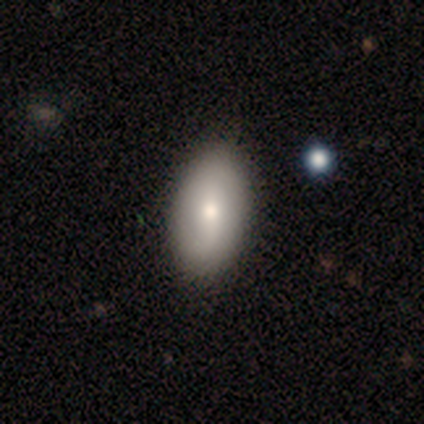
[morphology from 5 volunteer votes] type=smooth (60%); roundness=in between (67%); merging=none (100%).